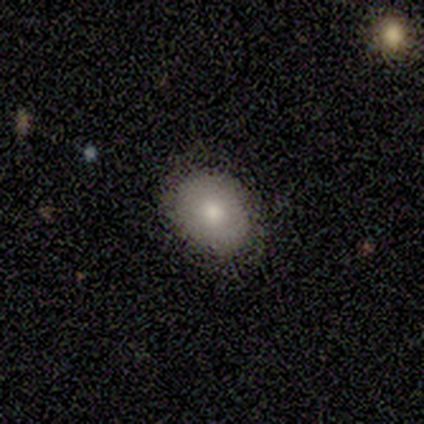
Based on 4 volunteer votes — This is possibly a smooth galaxy (50%). How rounded: clearly round (100%). Merging: likely none (67%).